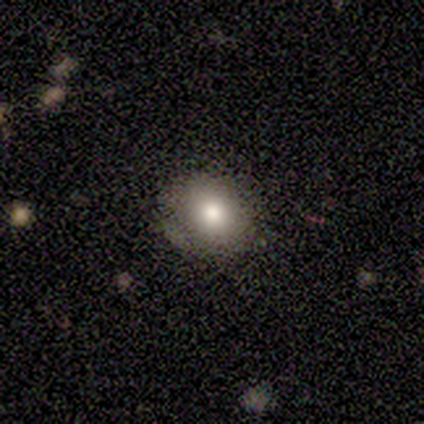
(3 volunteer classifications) A smooth galaxy with no disk features (100%) that is round (100%). Merging: none (67%).